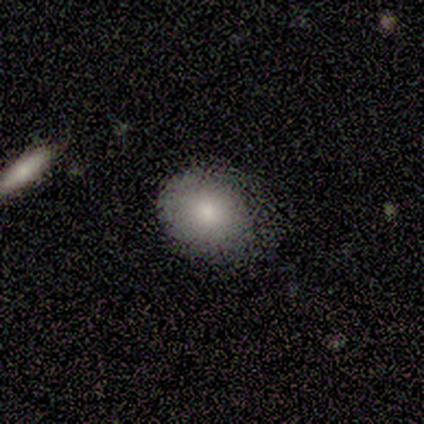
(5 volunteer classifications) This appears to be a smooth galaxy with no disk features (100%) that is round (100%). Merging: minor disturbance (60%).